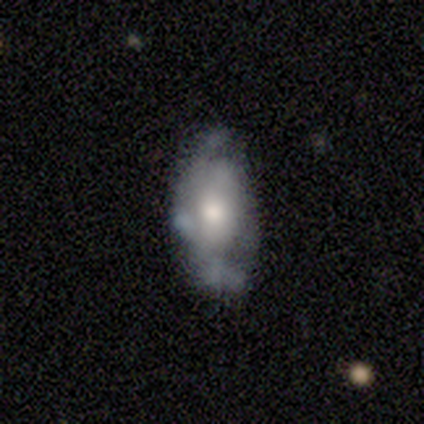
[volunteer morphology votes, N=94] Smooth or featured: featured or disk — 62% (smooth — 33%)
Edge-on disk: no — 95% (yes — 5%)
Bar: no — 75% (weak — 20%)
Spiral arms: yes — 58% (no — 42%)
Spiral winding: tight — 44% (medium — 28%)
Spiral arm count: can't tell — 53% (2 — 28%)
Bulge size: moderate — 49% (small — 38%)
Merging: none — 53% (minor disturbance — 31%)